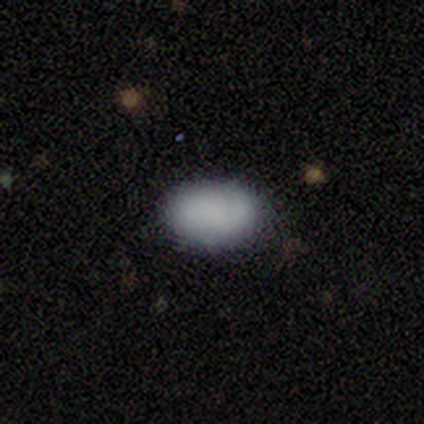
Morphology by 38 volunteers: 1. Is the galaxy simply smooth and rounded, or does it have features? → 74% smooth, 13% featured or disk, 13% star or artifact.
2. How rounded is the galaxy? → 93% in between, 7% round, 0% cigar-shaped.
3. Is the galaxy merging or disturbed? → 82% none, 15% minor disturbance, 3% major disturbance, 0% merger.